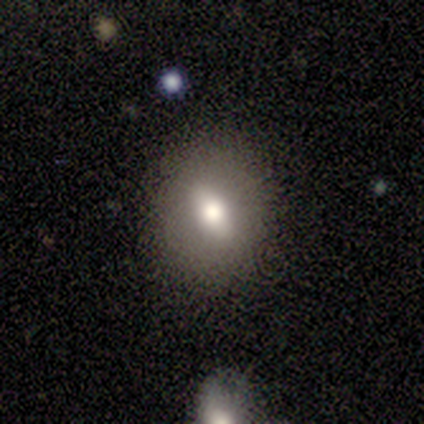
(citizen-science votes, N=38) smooth 63%, featured or disk 32%, star or artifact 5%. Down the decision tree: how rounded — in between (62%); merging — none (78%).